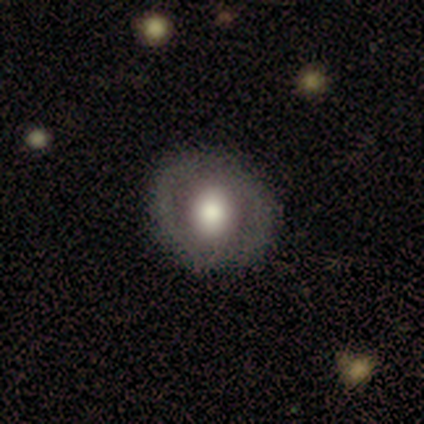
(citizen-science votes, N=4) Morphology: type=star or artifact (50%).